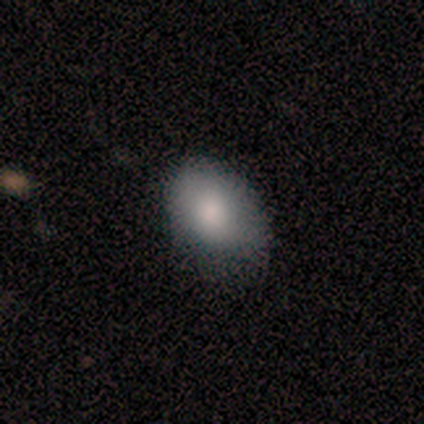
Overall: smooth (100%). How rounded: in between (100%). Merging: none (100%).